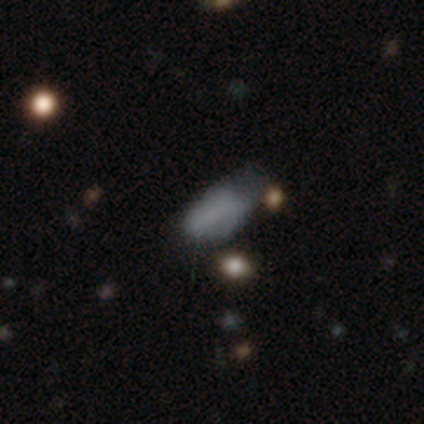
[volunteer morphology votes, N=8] This appears to be a smooth galaxy with no disk features (88%) that is in between round and cigar-shaped (100%). Merging: minor disturbance (57%).